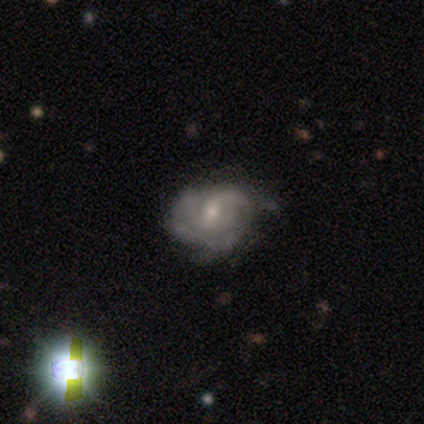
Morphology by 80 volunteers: Smooth or featured? 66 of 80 (82%) said featured or disk. Edge-on disk? 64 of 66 (97%) said no. Bar? 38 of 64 (59%) said weak. Spiral arms? 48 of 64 (75%) said yes. Spiral winding? 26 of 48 (54%) said tight. Spiral arm count? 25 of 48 (52%) said can't tell. Bulge size? 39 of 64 (61%) said small. Merging? 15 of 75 (20%) said minor disturbance.